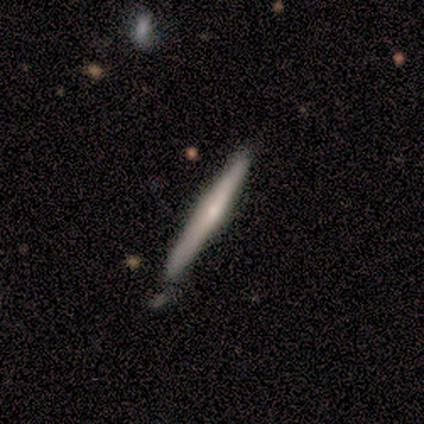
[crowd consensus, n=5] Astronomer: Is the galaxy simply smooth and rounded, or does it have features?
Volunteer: smooth — 60% (runner-up: featured or disk, 40%).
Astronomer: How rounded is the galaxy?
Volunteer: cigar-shaped — 100%.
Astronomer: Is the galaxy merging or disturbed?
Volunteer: none — 100%.